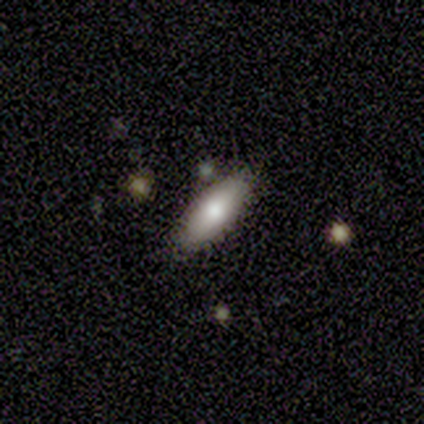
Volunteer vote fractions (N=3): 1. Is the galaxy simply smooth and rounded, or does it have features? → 100% smooth, 0% featured or disk, 0% star or artifact.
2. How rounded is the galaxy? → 100% in between, 0% round, 0% cigar-shaped.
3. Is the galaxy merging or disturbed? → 100% none, 0% minor disturbance, 0% major disturbance, 0% merger.